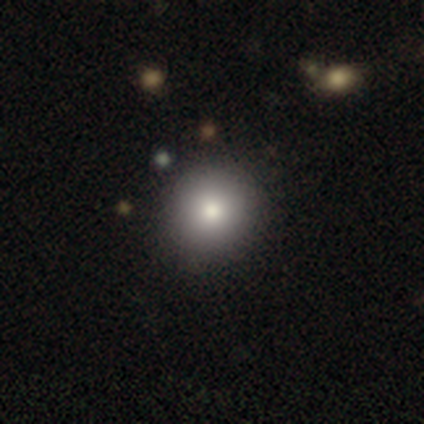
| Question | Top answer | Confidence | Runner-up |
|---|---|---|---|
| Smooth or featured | smooth | 82% | star or artifact (12%) |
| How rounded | round | 94% | in between (6%) |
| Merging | none | 52% | major disturbance (3%) |